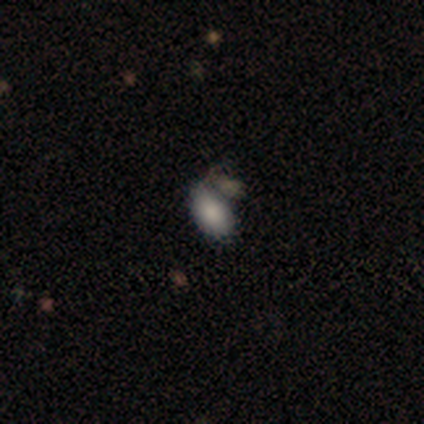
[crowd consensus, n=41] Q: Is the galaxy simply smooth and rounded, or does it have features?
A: smooth — 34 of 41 (83%).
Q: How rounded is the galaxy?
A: in between — 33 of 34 (97%).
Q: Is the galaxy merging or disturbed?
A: none — 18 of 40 (45%).